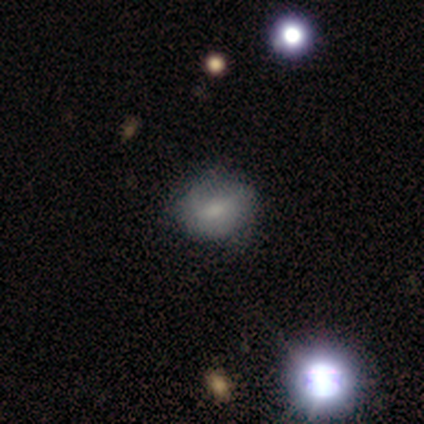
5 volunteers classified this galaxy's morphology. Smooth or featured? 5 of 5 (100%) said smooth. How rounded? 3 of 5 (60%) said round. Merging? 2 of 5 (40%, tied with minor disturbance) said none.